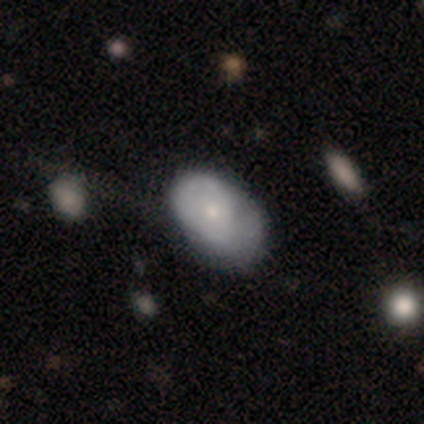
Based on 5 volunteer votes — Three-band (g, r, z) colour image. It shows a smooth galaxy with no disk features (80%) that is in between round and cigar-shaped (100%). Merging: minor disturbance (60%).